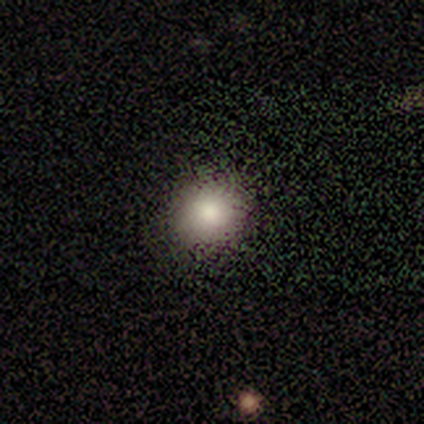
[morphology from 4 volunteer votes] This is possibly a smooth galaxy (50%). How rounded: clearly round (100%). Merging: clearly none (100%).